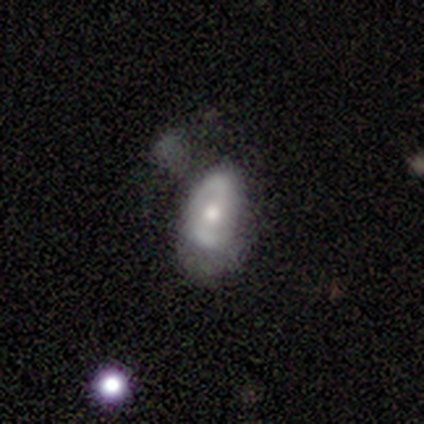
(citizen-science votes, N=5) This is likely a featured or disk galaxy (60%). It is clearly not viewed edge-on (100%). Bar: likely weak (67%). Spiral arm pattern: clearly yes (100%). Spiral arm count: clearly 2 (100%). Spiral winding: likely medium (67%). Central bulge: clearly moderate (100%). Merging: marginally none (40%, tied with major disturbance).